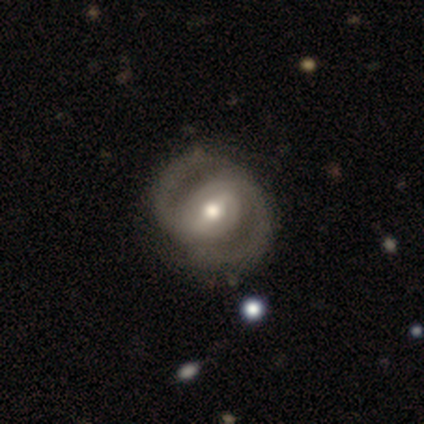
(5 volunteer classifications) featured or disk 80%, star or artifact 20%, smooth 0%. Down the decision tree: edge-on disk — no (100%); bar — weak (50%); spiral arms — yes (75%); spiral arm count — 2 (100%); spiral winding — tight (67%); bulge size — moderate (75%); merging — none (100%).